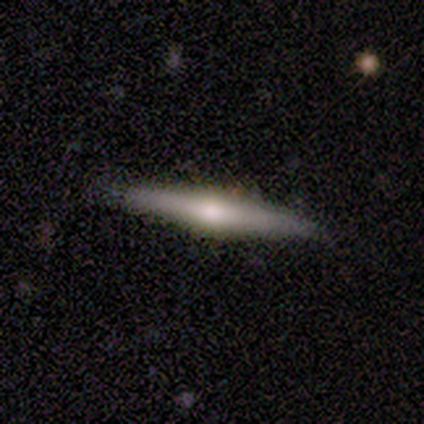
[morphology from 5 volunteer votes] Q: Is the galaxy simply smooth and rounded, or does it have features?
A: featured or disk — 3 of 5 (60%).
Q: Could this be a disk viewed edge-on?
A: yes — 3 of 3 (100%).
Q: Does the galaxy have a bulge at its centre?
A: rounded — 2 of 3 (67%).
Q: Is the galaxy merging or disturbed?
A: none — 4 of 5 (80%).